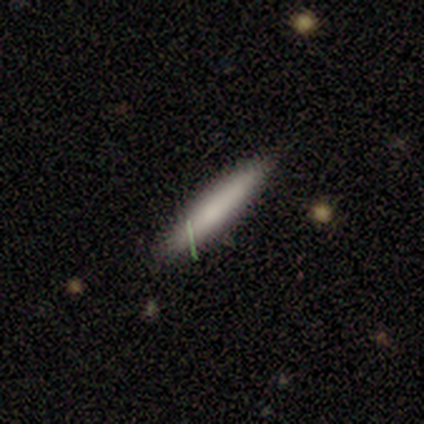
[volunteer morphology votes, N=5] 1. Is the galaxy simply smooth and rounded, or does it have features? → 100% smooth, 0% featured or disk, 0% star or artifact.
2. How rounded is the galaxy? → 80% cigar-shaped, 20% in between, 0% round.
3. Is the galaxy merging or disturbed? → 100% none, 0% minor disturbance, 0% major disturbance, 0% merger.